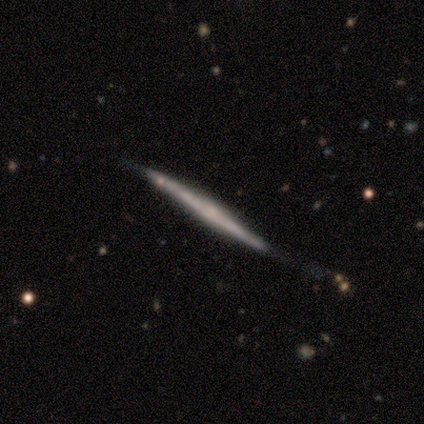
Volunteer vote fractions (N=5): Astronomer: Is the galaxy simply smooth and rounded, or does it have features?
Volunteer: featured or disk — 80%.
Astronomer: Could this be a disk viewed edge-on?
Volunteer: yes — 100%.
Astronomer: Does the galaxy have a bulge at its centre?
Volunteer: none — 50%, tied with rounded at 50%.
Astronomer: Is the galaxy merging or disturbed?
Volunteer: none — 80%.